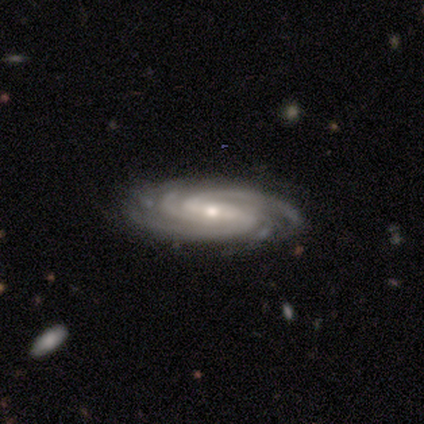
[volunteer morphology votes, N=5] smooth_or_featured: featured or disk (p=0.80) [alt: smooth p=0.20]
disk_edge_on: no (p=0.75) [alt: yes p=0.25]
bar: no (p=0.67) [alt: strong p=0.33]
has_spiral_arms: yes (p=1.00)
spiral_winding: tight (p=0.67) [alt: medium p=0.33]
spiral_arm_count: 4 (p=0.67) [alt: 2 p=0.33]
bulge_size: small (p=1.00)
merging: none (p=0.40) [tied with: minor disturbance p=0.40]